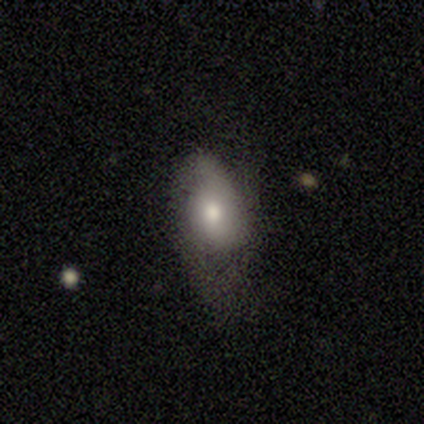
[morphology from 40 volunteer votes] Q: Smooth or featured?
A: smooth (65%); runner-up: featured or disk (32%)
Q: How rounded?
A: in between (77%); runner-up: round (23%)
Q: Merging?
A: none (38%); runner-up: minor disturbance (31%)